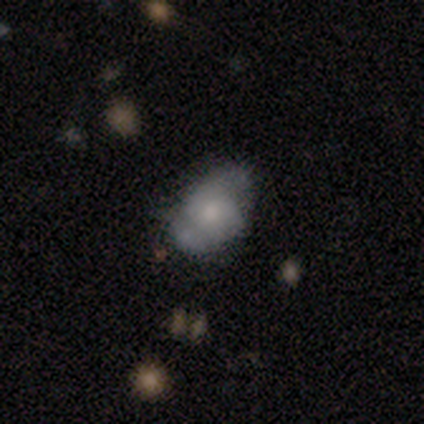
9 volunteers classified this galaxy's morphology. This is clearly a featured or disk galaxy (89%). It is clearly not viewed edge-on (100%). Bar: clearly no (100%). Spiral arm pattern: likely yes (62%). Spiral arm count: likely 2 (60%). Spiral winding: likely medium (60%). Central bulge: marginally moderate (38%, tied with small). Merging: likely minor disturbance (67%).